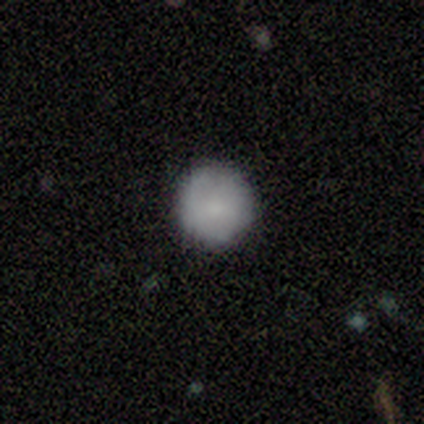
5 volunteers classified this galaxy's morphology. Overall: smooth (60%; featured or disk 40%). How rounded: round (100%). Merging: none (60%; minor disturbance 40%).